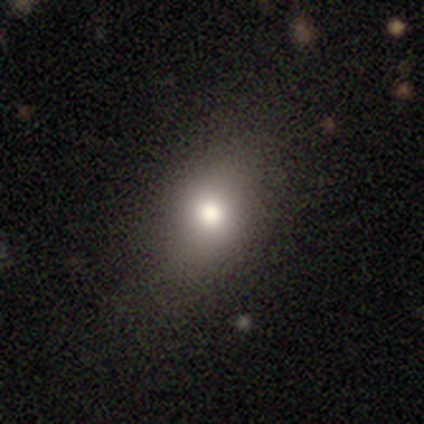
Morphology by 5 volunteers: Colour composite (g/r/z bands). It shows a smooth galaxy with no disk features (60%) that is round (67%). Merging: none (100%).